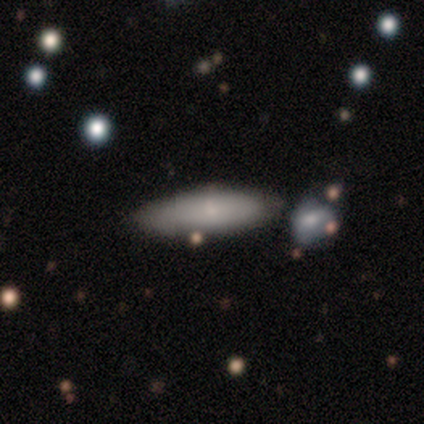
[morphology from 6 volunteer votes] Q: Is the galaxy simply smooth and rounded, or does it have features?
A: smooth — 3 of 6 (50%, tied with featured or disk).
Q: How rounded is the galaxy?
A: in between — 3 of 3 (100%).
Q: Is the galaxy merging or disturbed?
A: none — 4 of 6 (67%).